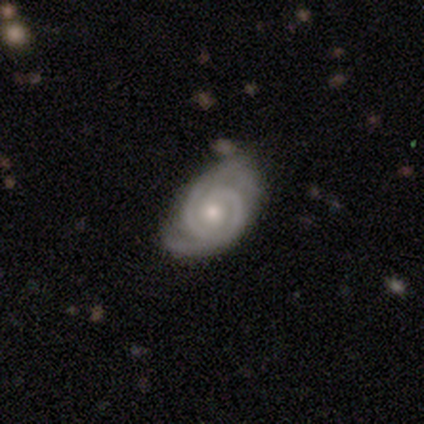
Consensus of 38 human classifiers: This is clearly a featured or disk galaxy (92%). It is clearly not viewed edge-on (97%). Bar: likely no (68%). Spiral arm pattern: clearly yes (100%). Spiral arm count: clearly 2 (91%). Spiral winding: likely tight (74%). Central bulge: possibly moderate (56%). Merging: likely none (70%).